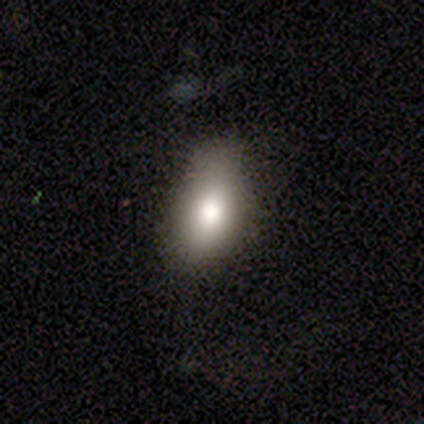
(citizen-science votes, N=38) smooth 79%, featured or disk 13%, star or artifact 8%. Down the decision tree: how rounded — in between (97%); merging — none (46%).